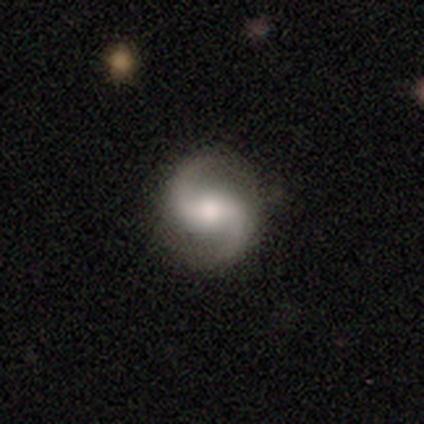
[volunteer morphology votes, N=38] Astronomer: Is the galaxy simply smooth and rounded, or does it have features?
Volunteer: featured or disk — 95%.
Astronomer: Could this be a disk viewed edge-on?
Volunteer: no — 100%.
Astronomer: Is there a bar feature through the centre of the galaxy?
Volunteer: weak — 39%, tied with no at 39%.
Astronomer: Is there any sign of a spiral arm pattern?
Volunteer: yes — 92%.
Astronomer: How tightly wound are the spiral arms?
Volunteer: loose — 55% (runner-up: medium, 33%).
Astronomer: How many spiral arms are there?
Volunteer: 2 — 97%.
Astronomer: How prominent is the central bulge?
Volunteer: moderate — 64%.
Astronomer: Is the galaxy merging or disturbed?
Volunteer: none — 95%.